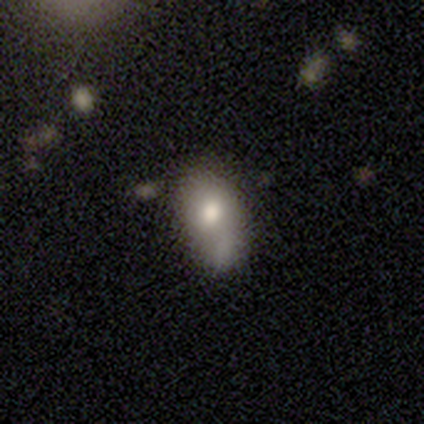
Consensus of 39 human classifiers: Smooth or featured? smooth (62%)
How rounded? in between (88%)
Merging? none (27%, tied with merger)